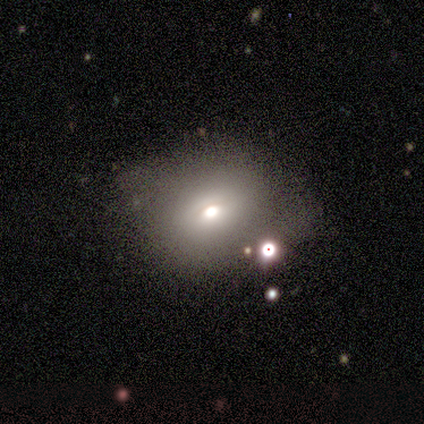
smooth_or_featured: smooth (p=0.64) [alt: featured or disk p=0.18]
how_rounded: in between (p=0.56) [alt: round p=0.44]
merging: none (p=0.34) [tied with: minor disturbance p=0.34]